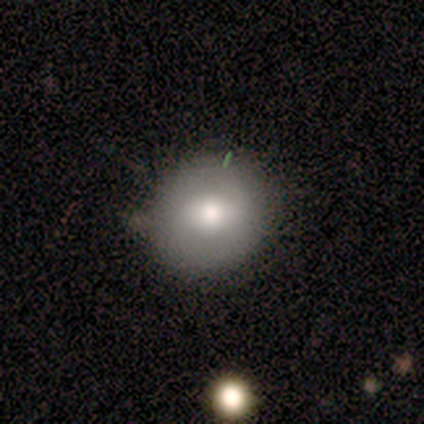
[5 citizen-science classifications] Morphology: type=smooth (100%); roundness=round (100%); merging=none (60%).